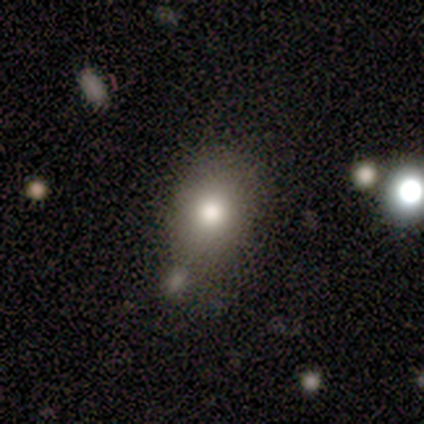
Smooth or featured: featured or disk — 40% (tied with star or artifact — 40%)
Edge-on disk: no — 100%
Bar: no — 100%
Spiral arms: no — 100%
Bulge size: large — 50% (tied with moderate — 50%)
Merging: none — 67% (merger — 33%)